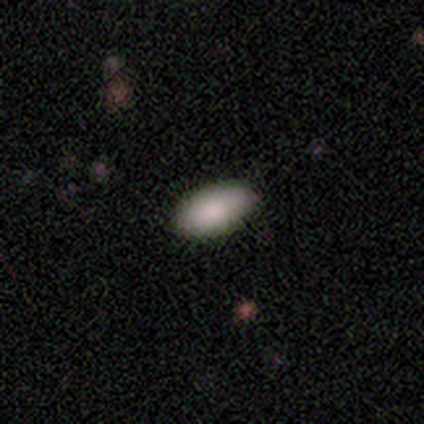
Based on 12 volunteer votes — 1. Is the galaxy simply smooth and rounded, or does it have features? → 75% smooth, 25% star or artifact, 0% featured or disk.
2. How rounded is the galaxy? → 100% in between, 0% round, 0% cigar-shaped.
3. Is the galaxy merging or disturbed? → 89% none, 11% minor disturbance, 0% major disturbance, 0% merger.